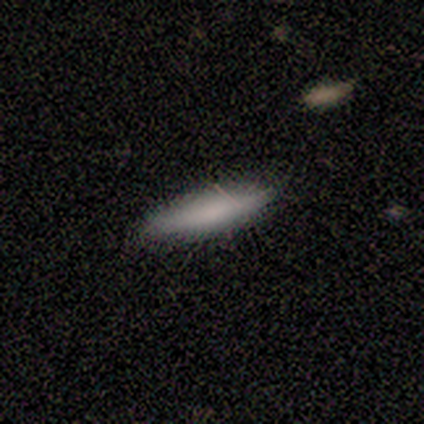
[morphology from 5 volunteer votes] Smooth or featured? smooth (100%)
How rounded? in between (60%)
Merging? none (60%)